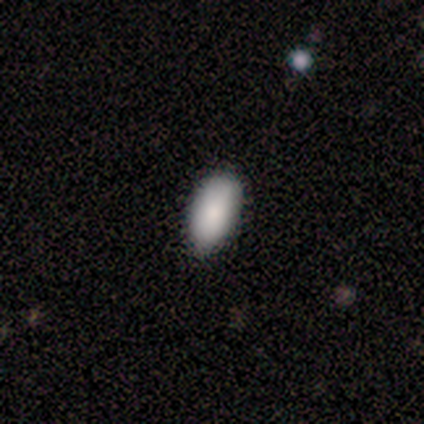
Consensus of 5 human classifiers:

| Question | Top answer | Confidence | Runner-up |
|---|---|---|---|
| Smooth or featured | smooth | 100% | — |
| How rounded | in between | 100% | — |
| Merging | none | 60% | minor disturbance (40%) |